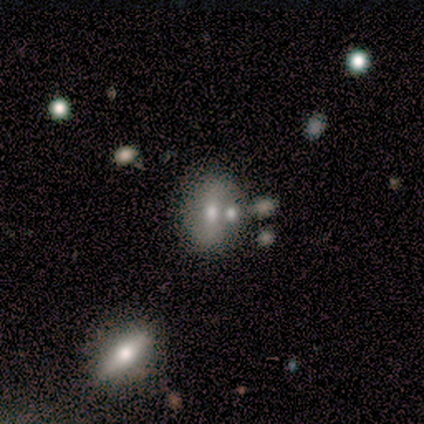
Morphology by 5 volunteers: Overall: smooth (60%; featured or disk 20%). How rounded: in between (100%). Merging: none (50%, tied with merger).